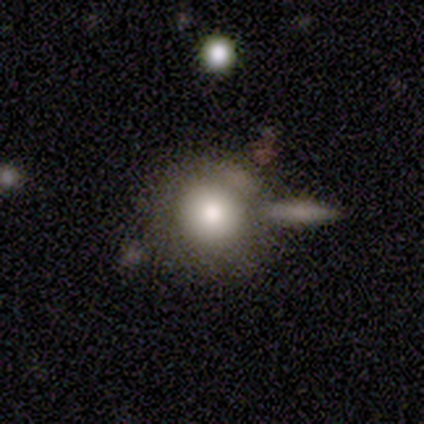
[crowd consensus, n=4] Smooth or featured?
  - smooth: 100% *
  - featured or disk: 0%
  - star or artifact: 0%
How rounded?
  - round: 75% *
  - cigar-shaped: 25%
  - in between: 0%
Merging?
  - none: 75% *
  - minor disturbance: 25%
  - major disturbance: 0%
  - merger: 0%